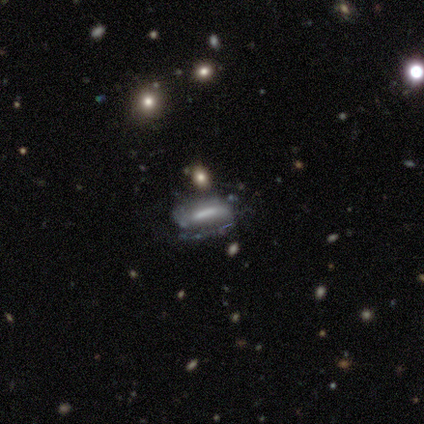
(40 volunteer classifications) A featured or disk galaxy (52%) with a strong bar (40%), 2 (44%) medium (44%) spiral arms (60%) and no central bulge (67%). Merging: none (63%).